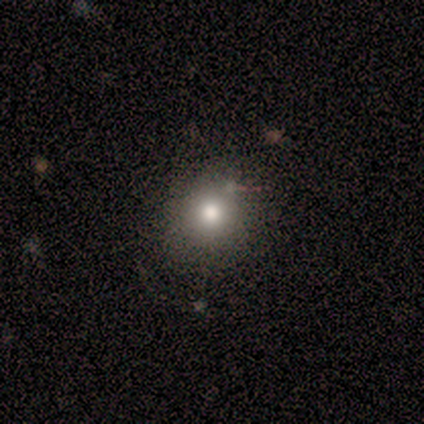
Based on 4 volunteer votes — This appears to be a smooth galaxy with no disk features (75%) that is round (100%). Merging: none (50%, tied with minor disturbance).